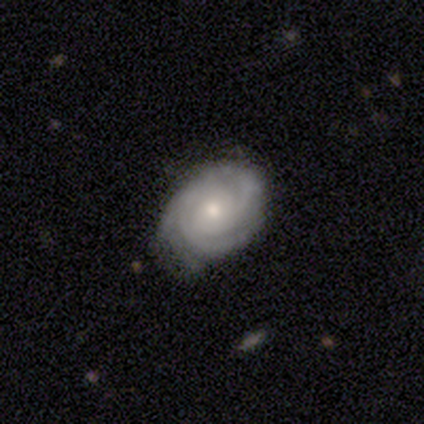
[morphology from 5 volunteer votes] Smooth or featured?
  - featured or disk: 100% *
  - smooth: 0%
  - star or artifact: 0%
Edge-on disk?
  - no: 100% *
  - yes: 0%
Bar?
  - no: 80% *
  - weak: 20%
  - strong: 0%
Spiral arms?
  - yes: 100% *
  - no: 0%
Spiral winding?
  - tight: 80% *
  - medium: 20%
  - loose: 0%
Spiral arm count?
  - 2: 60% *
  - 3: 20%
  - can't tell: 20%
  - 1: 0%
  - 4: 0%
  - more than 4: 0%
Bulge size?
  - small: 60% *
  - moderate: 40%
  - dominant: 0%
  - large: 0%
  - none: 0%
Merging?
  - none: 80% *
  - minor disturbance: 20%
  - major disturbance: 0%
  - merger: 0%